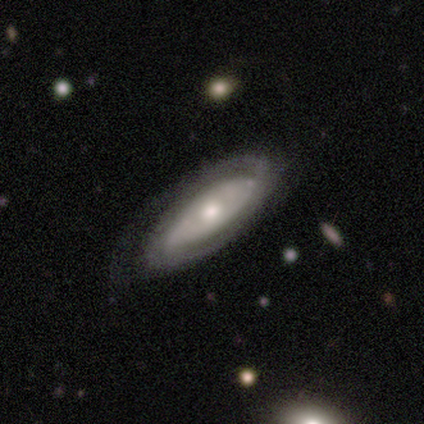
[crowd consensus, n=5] Smooth or featured?
  - featured or disk: 80% *
  - smooth: 20%
  - star or artifact: 0%
Edge-on disk?
  - no: 75% *
  - yes: 25%
Bar?
  - strong: 33% * (tied)
  - weak: 33% * (tied)
  - no: 33% * (tied)
Spiral arms?
  - yes: 100% *
  - no: 0%
Spiral winding?
  - tight: 67% *
  - loose: 33%
  - medium: 0%
Spiral arm count?
  - 2: 67% *
  - can't tell: 33%
  - 1: 0%
  - 3: 0%
  - 4: 0%
  - more than 4: 0%
Bulge size?
  - large: 33% * (tied)
  - moderate: 33% * (tied)
  - small: 33% * (tied)
  - dominant: 0%
  - none: 0%
Merging?
  - none: 80% *
  - major disturbance: 20%
  - minor disturbance: 0%
  - merger: 0%